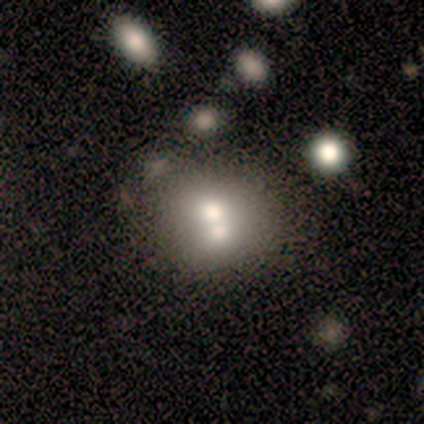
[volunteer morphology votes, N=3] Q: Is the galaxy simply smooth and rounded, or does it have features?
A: smooth — 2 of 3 (67%).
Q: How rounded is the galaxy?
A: in between — 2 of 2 (100%).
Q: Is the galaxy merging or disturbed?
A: merger — 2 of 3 (67%).